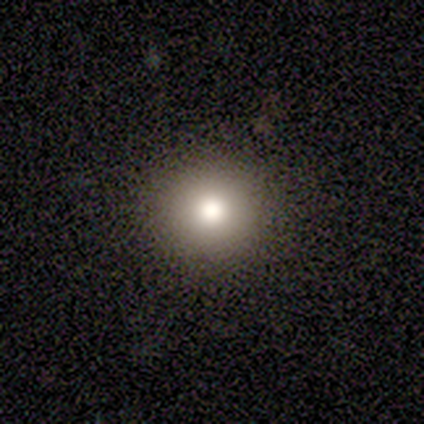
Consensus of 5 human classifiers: smooth 40% (tied), featured or disk 40% (tied), star or artifact 20%. Down the decision tree: how rounded — round (100%); merging — none (100%).